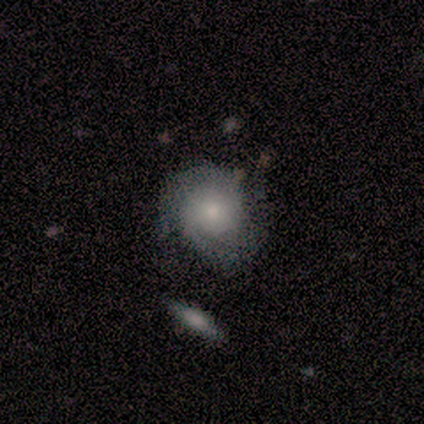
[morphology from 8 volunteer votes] A featured or disk galaxy (75%) with no bar (83%), 2 (67%) tight (67%) spiral arms (100%) and a moderate central bulge (50%, tied with small). Merging: none (62%).